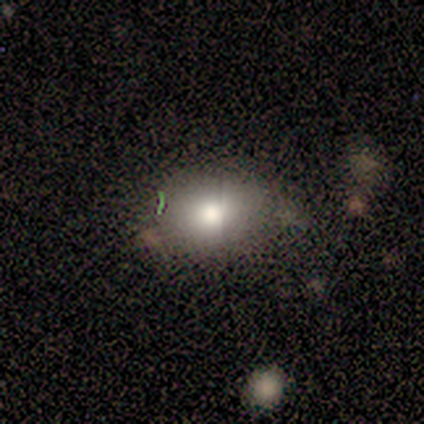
Q: Smooth or featured?
A: smooth (71%); runner-up: featured or disk (29%)
Q: How rounded?
A: in between (80%); runner-up: round (20%)
Q: Merging?
A: none (71%); runner-up: minor disturbance (29%)